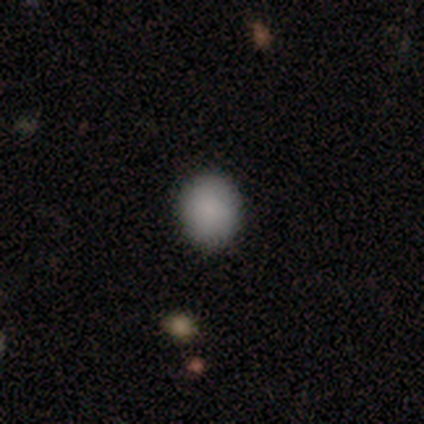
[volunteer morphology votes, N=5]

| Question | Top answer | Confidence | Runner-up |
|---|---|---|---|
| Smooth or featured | smooth | 100% | — |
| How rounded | round | 100% | — |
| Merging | none | 80% | merger (20%) |